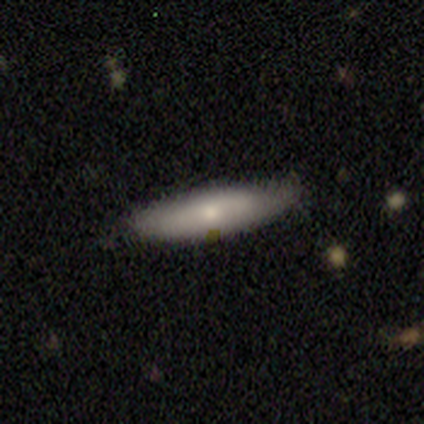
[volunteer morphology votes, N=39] smooth 77%, featured or disk 15%, star or artifact 8%. Down the decision tree: how rounded — cigar-shaped (70%); merging — none (83%).